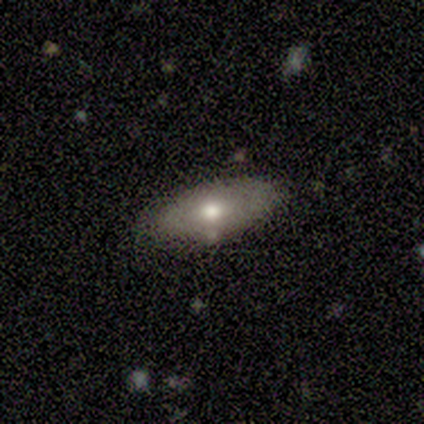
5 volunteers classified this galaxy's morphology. A smooth galaxy with no disk features (80%) that is in between round and cigar-shaped (100%). Merging: none (100%).